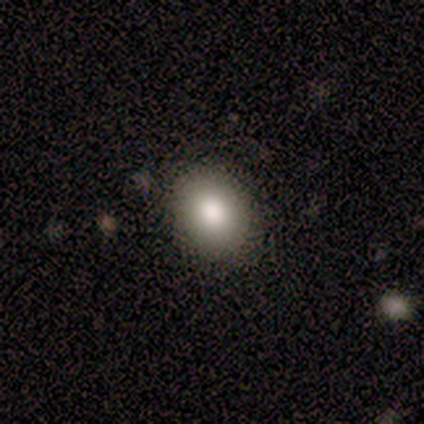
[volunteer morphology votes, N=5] A smooth galaxy with no disk features (100%) that is in between round and cigar-shaped (60%). Merging: none (80%).